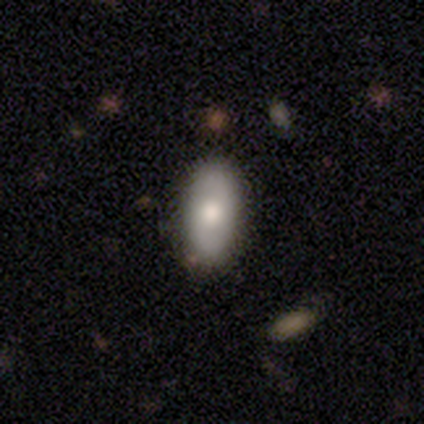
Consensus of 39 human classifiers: A smooth galaxy with no disk features (69%) that is in between round and cigar-shaped (93%). Merging: none (67%).